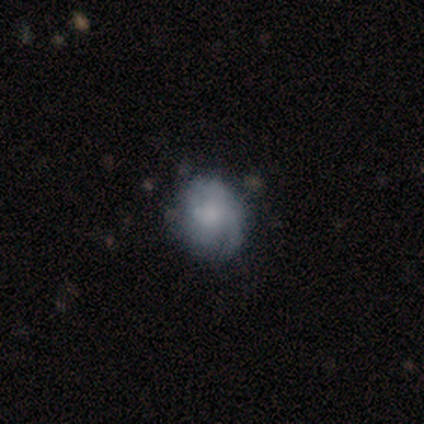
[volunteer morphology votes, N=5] Smooth or featured: featured or disk — 60% (smooth — 20%)
Edge-on disk: no — 100%
Bar: no — 67% (weak — 33%)
Spiral arms: yes — 67% (no — 33%)
Spiral winding: tight — 100%
Spiral arm count: can't tell — 100%
Bulge size: moderate — 33% (tied with small — 33%; none — 33%)
Merging: none — 50% (tied with minor disturbance — 50%)